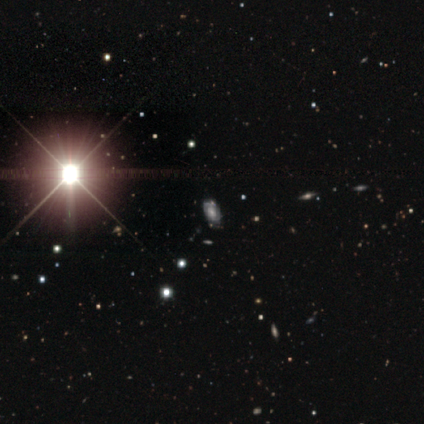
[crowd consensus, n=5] Smooth or featured: star or artifact — 60% (featured or disk — 40%)